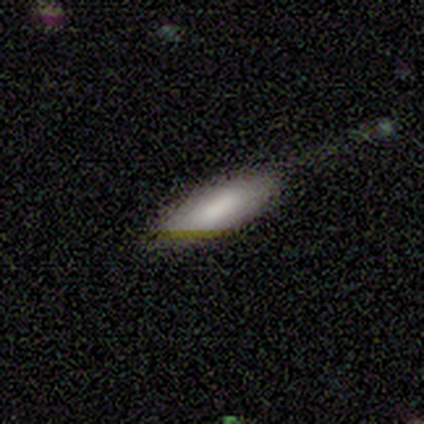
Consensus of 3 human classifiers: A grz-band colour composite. It shows a star or artifact, not a galaxy (67%).